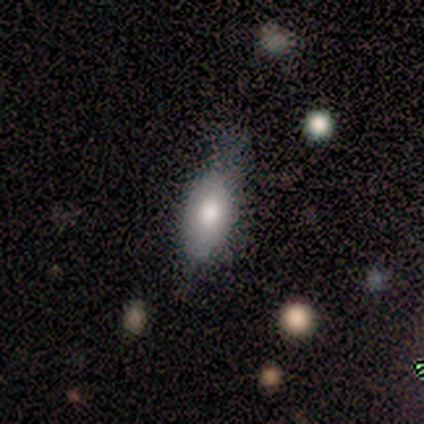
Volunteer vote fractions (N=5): Smooth or featured? smooth (60%)
How rounded? in between (67%)
Merging? minor disturbance (60%)